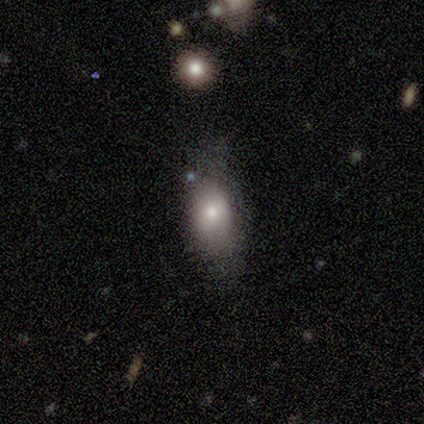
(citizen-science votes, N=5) Overall: smooth (80%). How rounded: in between (100%). Merging: none (80%).